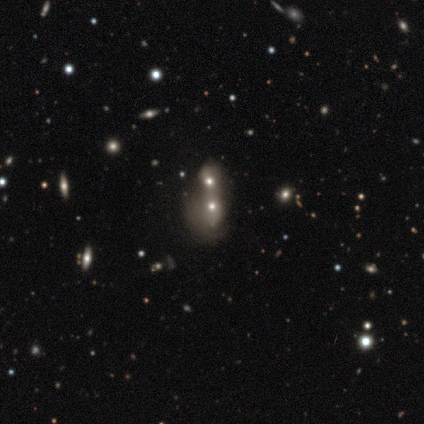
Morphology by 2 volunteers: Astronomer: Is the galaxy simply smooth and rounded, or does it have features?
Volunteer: star or artifact — 100%.